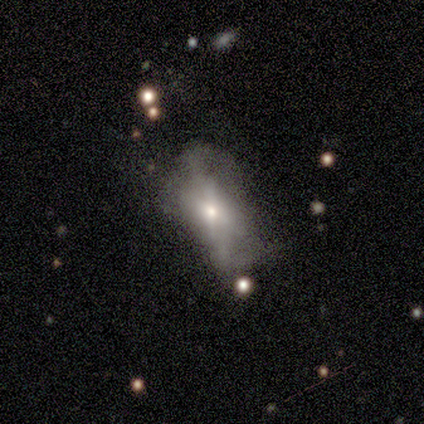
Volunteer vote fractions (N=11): Q: Smooth or featured?
A: smooth (45%); runner-up: featured or disk (36%)
Q: How rounded?
A: in between (80%); runner-up: round (20%)
Q: Merging?
A: major disturbance (44%); runner-up: minor disturbance (33%)